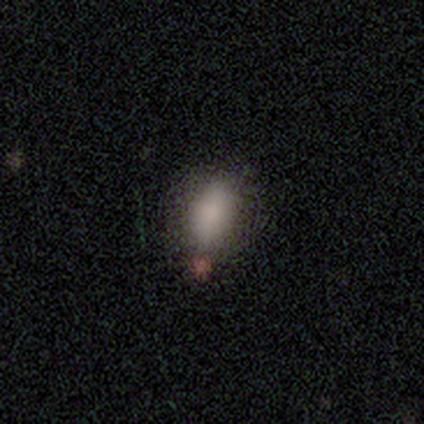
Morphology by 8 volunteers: smooth 62%, star or artifact 25%, featured or disk 12%. Down the decision tree: how rounded — in between (100%); merging — none (67%).